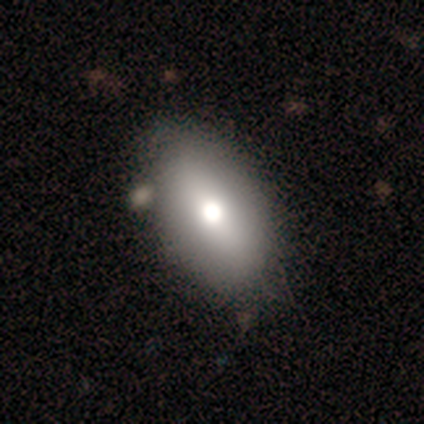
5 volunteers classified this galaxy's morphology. Overall: smooth (100%). How rounded: round (40%, tied with cigar-shaped). Merging: none (80%).